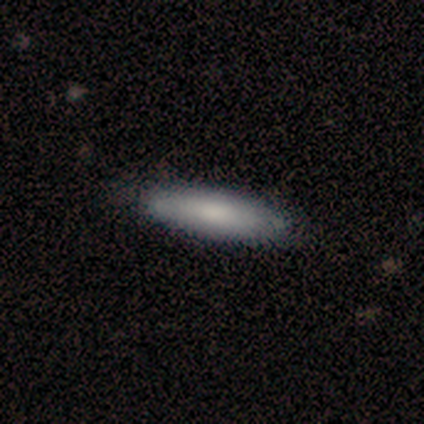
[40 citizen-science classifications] A smooth galaxy with no disk features (80%) that is cigar-shaped (78%).

Vote fractions:
- Smooth or featured? smooth: 80% / featured or disk: 20% / star or artifact: 0%
- How rounded? cigar-shaped: 78% / in between: 22% / round: 0%
- Merging? none: 50% / minor disturbance: 8% / merger: 5% / major disturbance: 2%